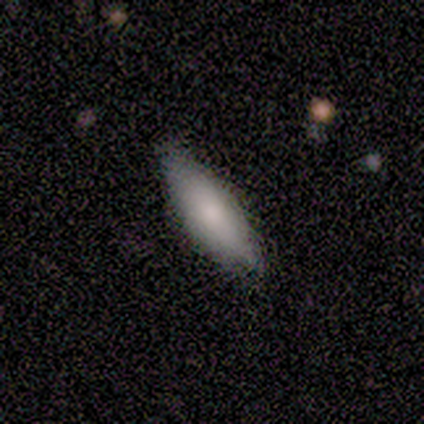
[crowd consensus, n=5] Volunteers were most divided on "how rounded" (2-way tie): in between: 50%, cigar-shaped: 50%, round: 0%. More confident: smooth or featured — smooth (80%); merging — none (60%).